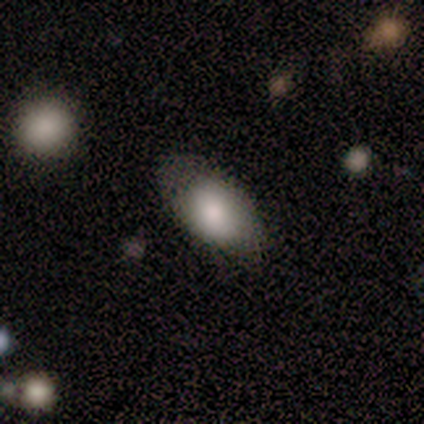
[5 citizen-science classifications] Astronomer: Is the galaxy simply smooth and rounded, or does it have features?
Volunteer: smooth — 80%.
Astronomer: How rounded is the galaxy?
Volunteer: in between — 100%.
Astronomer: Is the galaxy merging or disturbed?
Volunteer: none — 50%, tied with minor disturbance at 50%.